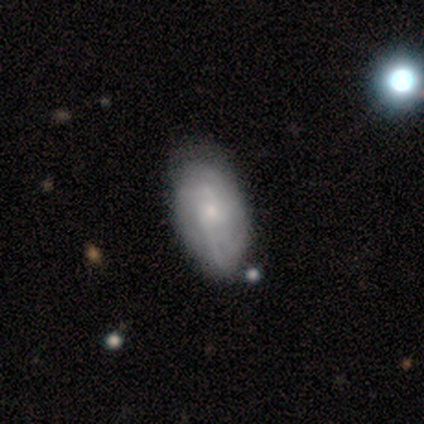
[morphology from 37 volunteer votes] This is possibly a smooth galaxy (49%). How rounded: clearly in between (89%). Merging: marginally none (40%).